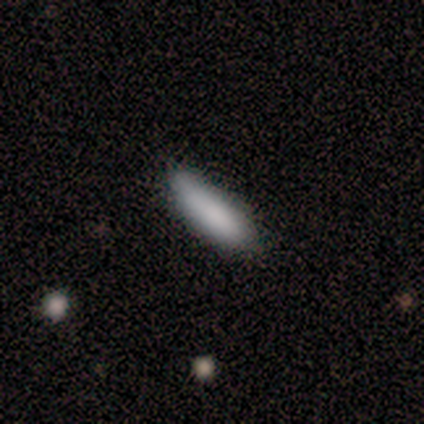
smooth 80%, featured or disk 20%, star or artifact 0%. Down the decision tree: how rounded — cigar-shaped (75%); merging — none (100%).